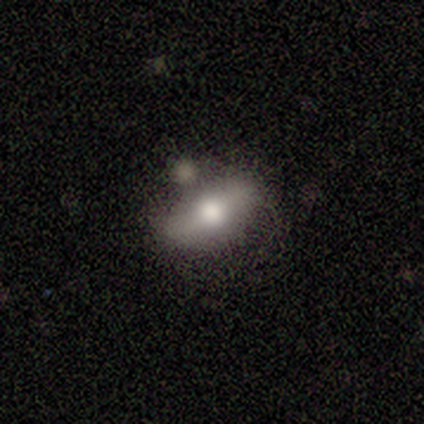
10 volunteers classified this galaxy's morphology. Overall: smooth (60%; featured or disk 40%). How rounded: in between (83%). Merging: none (80%).